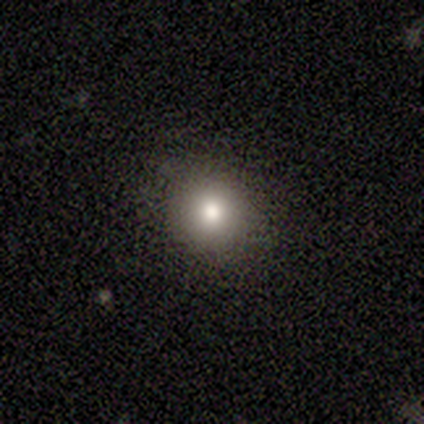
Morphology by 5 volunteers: Q: Smooth or featured?
A: smooth (100%)
Q: How rounded?
A: round (80%); runner-up: in between (20%)
Q: Merging?
A: none (80%); runner-up: minor disturbance (20%)